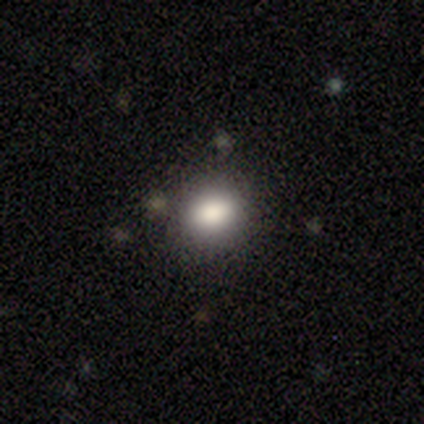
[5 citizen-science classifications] smooth 80%, featured or disk 20%, star or artifact 0%. Down the decision tree: how rounded — round (50%, tied with in between); merging — none (80%).